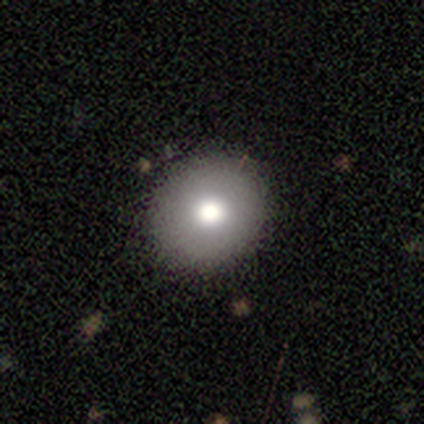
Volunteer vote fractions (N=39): A smooth galaxy with no disk features (87%) that is round (97%). Merging: none (92%).